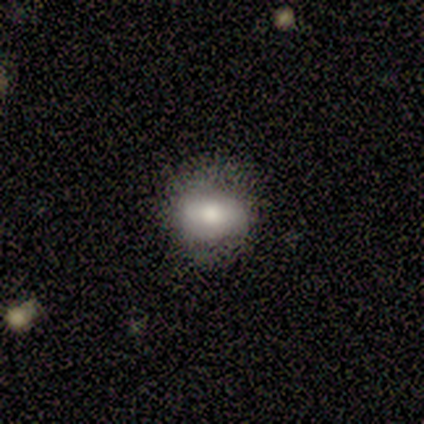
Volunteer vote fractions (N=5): Smooth or featured? featured or disk (60%)
Edge-on disk? no (100%)
Bar? strong (67%)
Spiral arms? no (100%)
Bulge size? small (67%)
Merging? none (100%)